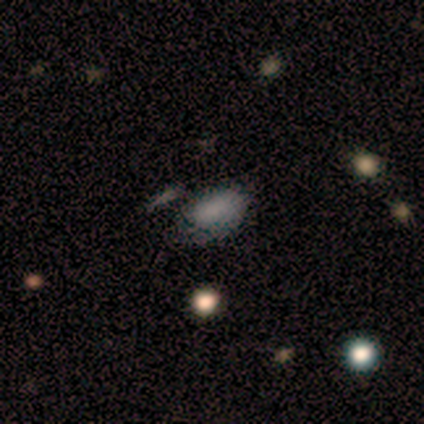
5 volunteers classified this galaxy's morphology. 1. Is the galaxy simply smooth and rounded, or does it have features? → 100% smooth, 0% featured or disk, 0% star or artifact.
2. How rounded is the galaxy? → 100% in between, 0% round, 0% cigar-shaped.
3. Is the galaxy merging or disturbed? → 80% none, 20% major disturbance, 0% minor disturbance, 0% merger.